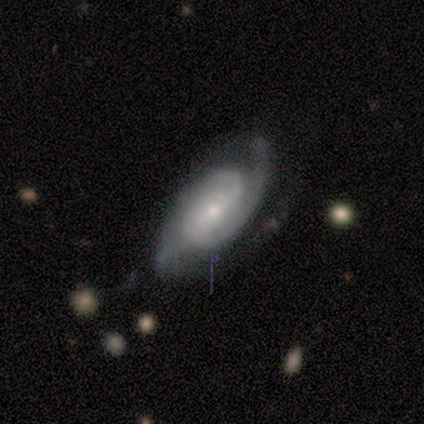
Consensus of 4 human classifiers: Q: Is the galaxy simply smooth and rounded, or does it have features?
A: featured or disk — 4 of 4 (100%).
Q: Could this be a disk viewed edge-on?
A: no — 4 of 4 (100%).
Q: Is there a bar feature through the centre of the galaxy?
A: no — 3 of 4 (75%).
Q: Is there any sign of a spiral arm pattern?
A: yes — 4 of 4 (100%).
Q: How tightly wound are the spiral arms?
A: tight — 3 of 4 (75%).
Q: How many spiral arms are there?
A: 1 — 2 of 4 (50%, tied with 2).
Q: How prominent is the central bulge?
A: small — 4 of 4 (100%).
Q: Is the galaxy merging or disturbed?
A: none — 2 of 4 (50%, tied with minor disturbance).